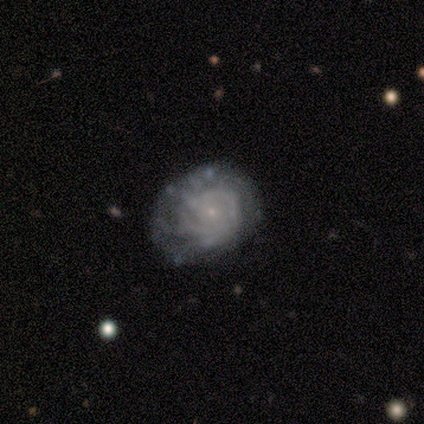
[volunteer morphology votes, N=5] Volunteers were most divided on "spiral arm count" (2-way tie): 3: 40%, can't tell: 40%, 2: 20%, 1: 0%, 4: 0%, more than 4: 0%. More confident: smooth or featured — featured or disk (100%); edge-on disk — no (100%); bar — no (100%); spiral arms — yes (100%); spiral winding — tight (100%); bulge size — small (100%); merging — none (80%).